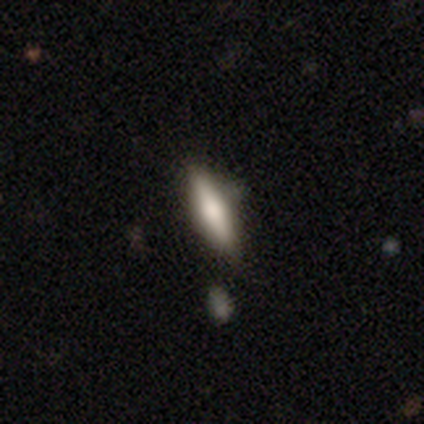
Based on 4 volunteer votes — Volunteers were most divided on "smooth or featured": featured or disk: 75%, star or artifact: 25%, smooth: 0%. More confident: edge-on disk — yes (100%); edge-on bulge — rounded (100%); merging — none (100%).